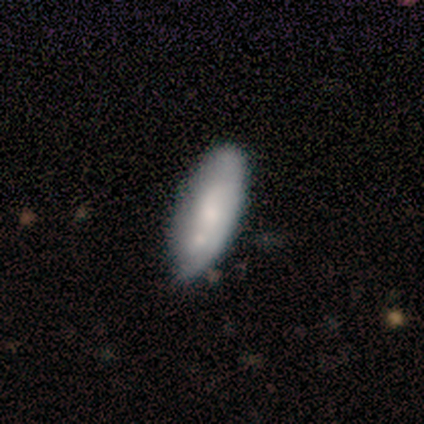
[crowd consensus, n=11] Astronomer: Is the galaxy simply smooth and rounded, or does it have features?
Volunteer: smooth — 82%.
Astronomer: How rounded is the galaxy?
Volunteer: in between — 67%.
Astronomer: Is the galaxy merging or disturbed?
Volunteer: none — 60%.